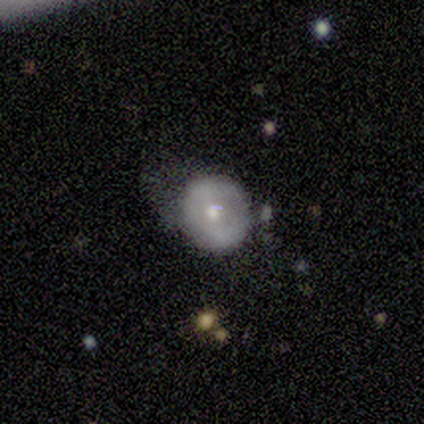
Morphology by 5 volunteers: smooth-or-featured: smooth: 80% | featured or disk: 20% | star or artifact: 0%
  how-rounded: round: 100% | in between: 0% | cigar-shaped: 0%
  merging: none: 60% | minor disturbance: 20% | major disturbance: 20% | merger: 0%